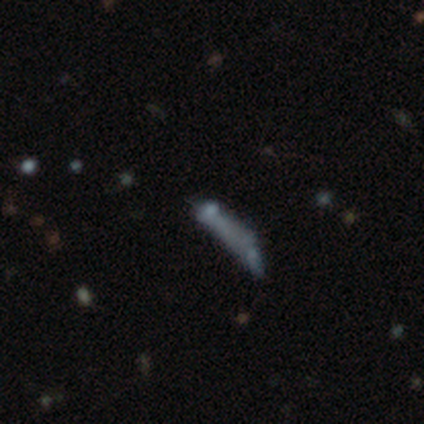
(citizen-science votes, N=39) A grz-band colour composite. It shows a featured or disk galaxy (44%) with no bar (93%), no spiral arms (100%) and no central bulge (80%). Merging: major disturbance (30%, tied with merger).